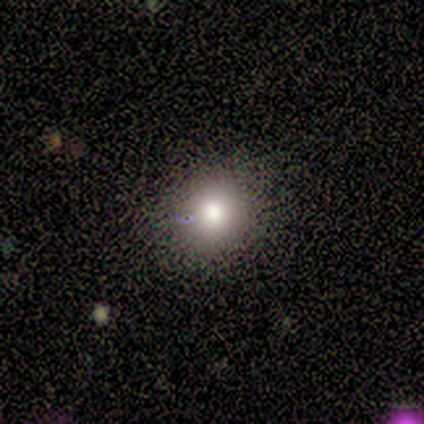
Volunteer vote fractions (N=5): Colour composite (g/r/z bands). It shows a smooth galaxy with no disk features (80%) that is round (75%). Merging: minor disturbance (75%).